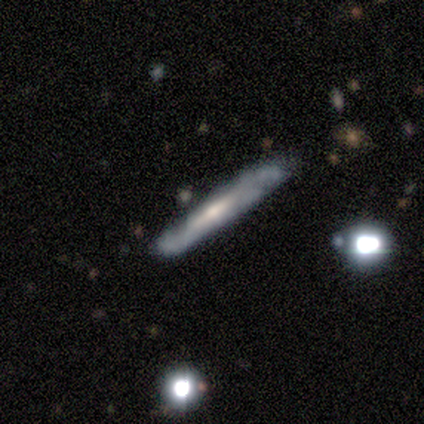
smooth 60%, featured or disk 40%, star or artifact 0%. Down the decision tree: how rounded — cigar-shaped (100%); merging — none (80%).